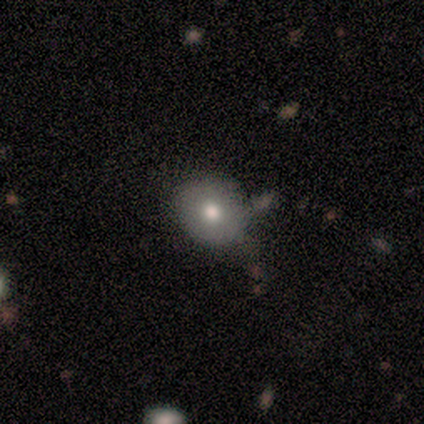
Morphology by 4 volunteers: Volunteers were most divided on "merging" (2-way tie): none: 50%, minor disturbance: 50%, major disturbance: 0%, merger: 0%. More confident: smooth or featured — smooth (100%); how rounded — round (100%).